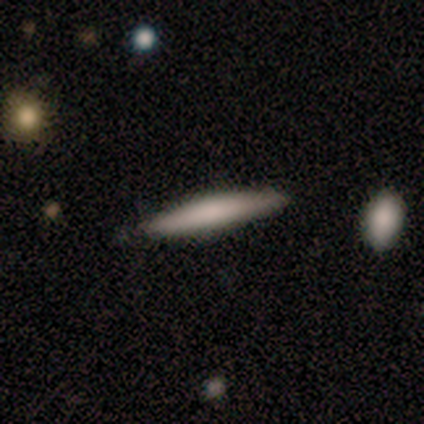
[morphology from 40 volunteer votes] smooth_or_featured: smooth (p=0.72) [alt: featured or disk p=0.28]
how_rounded: cigar-shaped (p=0.97) [alt: in between p=0.03]
merging: none (p=0.88) [alt: minor disturbance p=0.07]